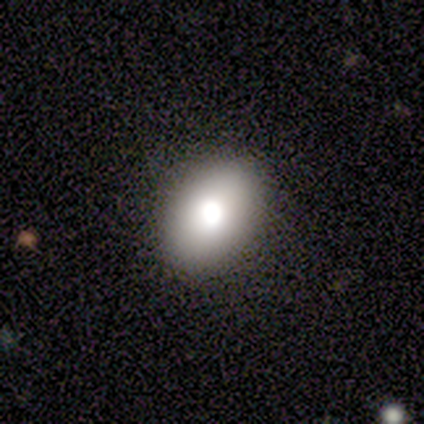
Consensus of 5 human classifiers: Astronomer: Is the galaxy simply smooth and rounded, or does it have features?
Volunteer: smooth — 80%.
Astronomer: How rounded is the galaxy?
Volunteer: in between — 75%.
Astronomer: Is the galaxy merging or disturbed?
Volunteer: none — 100%.